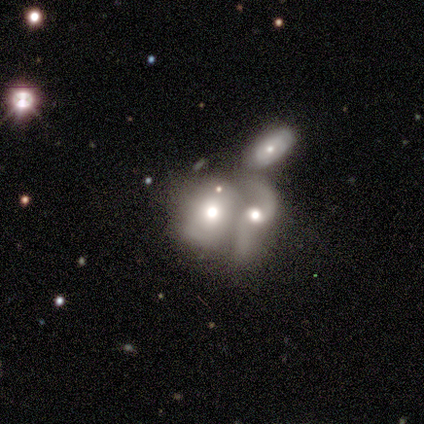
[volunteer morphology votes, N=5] Q: Smooth or featured?
A: smooth (40%); tied with: featured or disk (40%)
Q: How rounded?
A: in between (100%)
Q: Merging?
A: merger (50%); runner-up: none (25%)